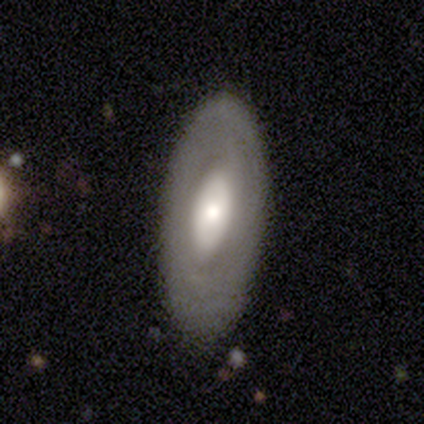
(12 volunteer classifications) Overall: smooth (50%, tied with featured or disk). How rounded: in between (100%). Merging: none (75%).